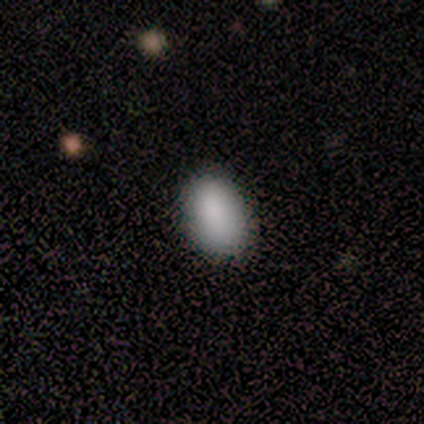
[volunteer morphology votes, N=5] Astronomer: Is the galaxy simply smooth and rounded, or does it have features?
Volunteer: smooth — 80%.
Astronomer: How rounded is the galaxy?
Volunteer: in between — 100%.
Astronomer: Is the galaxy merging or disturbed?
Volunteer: none — 80%.